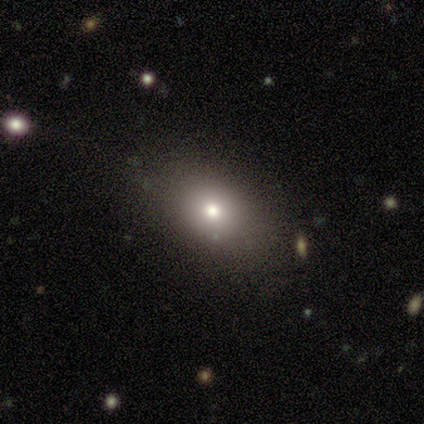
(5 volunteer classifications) Volunteers were most divided on "smooth or featured" (2-way tie): smooth: 40%, star or artifact: 40%, featured or disk: 20%; "how rounded" (2-way tie): round: 50%, in between: 50%, cigar-shaped: 0%. More confident: merging — minor disturbance (67%).